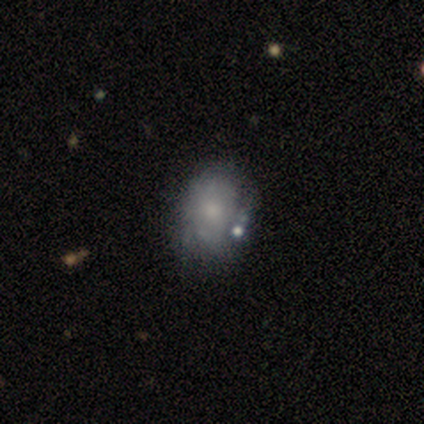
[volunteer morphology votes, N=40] This appears to be a featured or disk galaxy (50%) with no bar (100%), no spiral arms (75%) and a small central bulge (55%). Merging: none (29%).